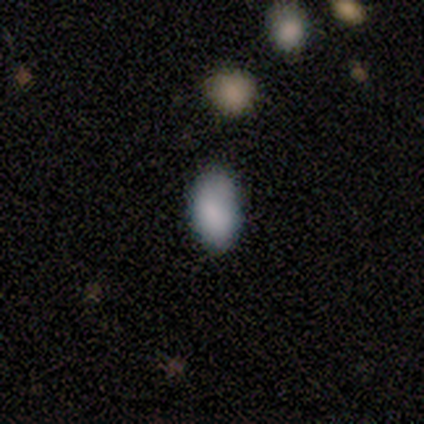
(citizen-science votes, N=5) Q: Smooth or featured?
A: smooth (80%); runner-up: featured or disk (20%)
Q: How rounded?
A: in between (100%)
Q: Merging?
A: none (60%); runner-up: minor disturbance (40%)